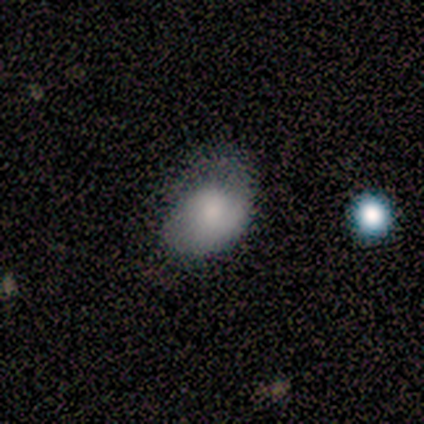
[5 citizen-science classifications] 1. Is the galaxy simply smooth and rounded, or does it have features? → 100% smooth, 0% featured or disk, 0% star or artifact.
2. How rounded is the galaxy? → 100% in between, 0% round, 0% cigar-shaped.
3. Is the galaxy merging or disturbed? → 40% minor disturbance (tied), 40% major disturbance (tied), 20% none, 0% merger.